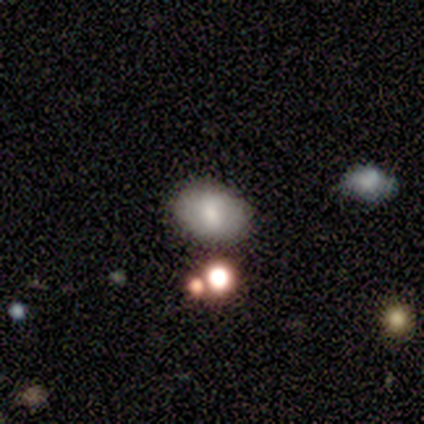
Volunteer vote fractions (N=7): This appears to be a smooth galaxy with no disk features (86%) that is in between round and cigar-shaped (67%). Merging: none (100%).